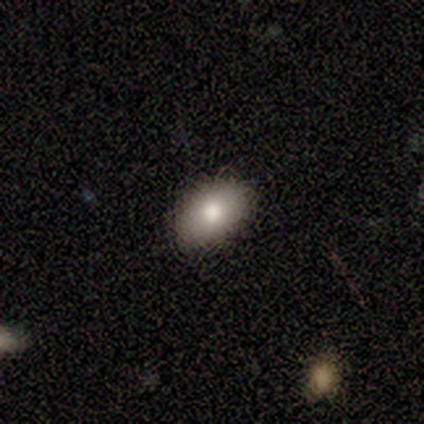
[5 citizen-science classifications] A smooth galaxy with no disk features (80%) that is in between round and cigar-shaped (100%). Merging: none (100%).